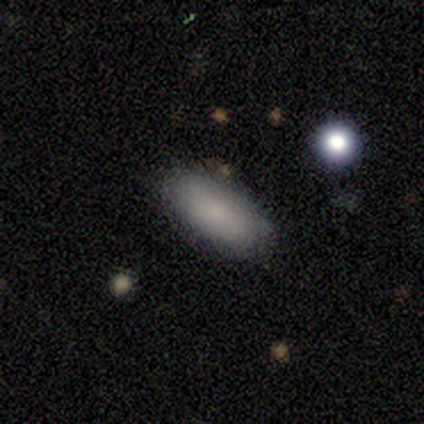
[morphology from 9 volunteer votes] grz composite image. It shows a smooth galaxy with no disk features (100%) that is in between round and cigar-shaped (89%). Merging: none (89%).